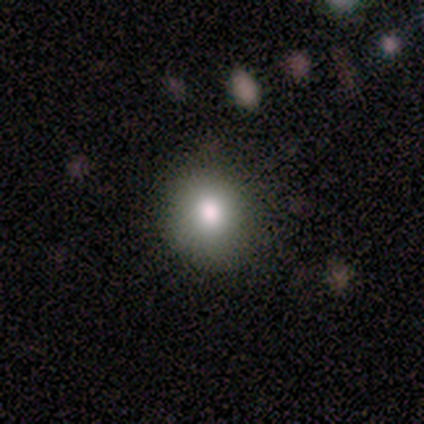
This is likely a smooth galaxy (60%). How rounded: likely in between (67%). Merging: marginally none (40%, tied with minor disturbance).